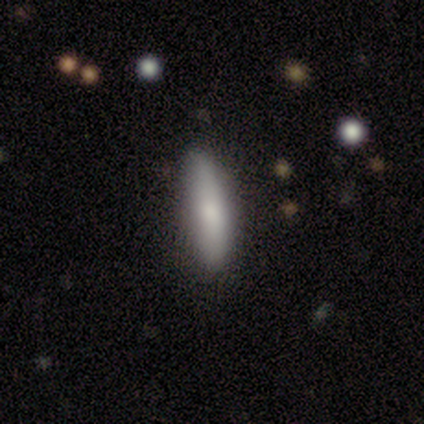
Q: Smooth or featured?
A: smooth (75%); runner-up: featured or disk (25%)
Q: How rounded?
A: in between (67%); runner-up: cigar-shaped (33%)
Q: Merging?
A: none (75%); runner-up: minor disturbance (25%)